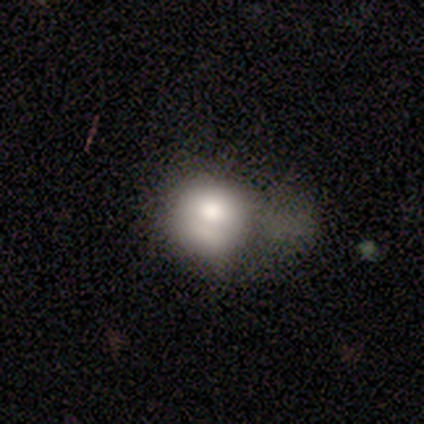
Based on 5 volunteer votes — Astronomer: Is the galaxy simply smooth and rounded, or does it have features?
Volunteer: smooth — 60%.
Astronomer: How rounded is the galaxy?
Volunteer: round — 67%.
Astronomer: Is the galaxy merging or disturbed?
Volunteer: none — 50%.